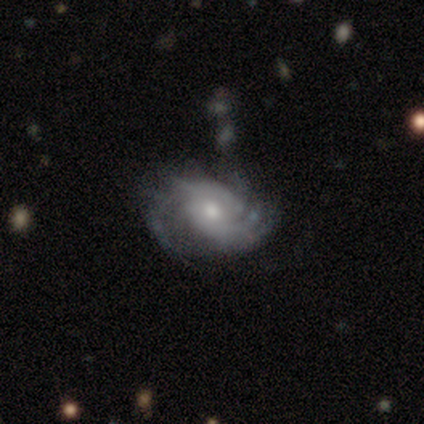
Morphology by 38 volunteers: Volunteers were most divided on "spiral arm count": 2: 36%, 3: 28%, can't tell: 24%, more than 4: 8%, 4: 4%, 1: 0%. More confident: edge-on disk — no (100%); bar — no (93%); spiral arms — yes (93%); spiral winding — tight (72%); smooth or featured — featured or disk (71%); bulge size — moderate (59%); merging — none (52%).